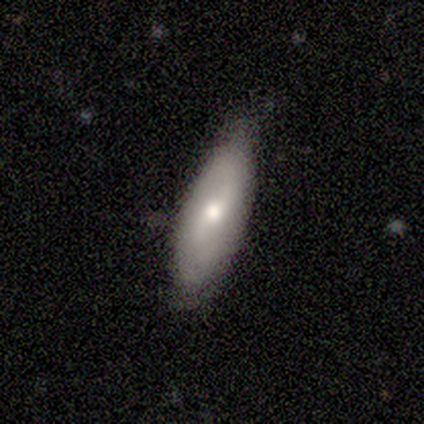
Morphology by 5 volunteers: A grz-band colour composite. It shows a featured or disk galaxy (60%) with a strong bar (33%, tied with weak and no), no spiral arms (67%) and a moderate central bulge (100%). Merging: none (80%).